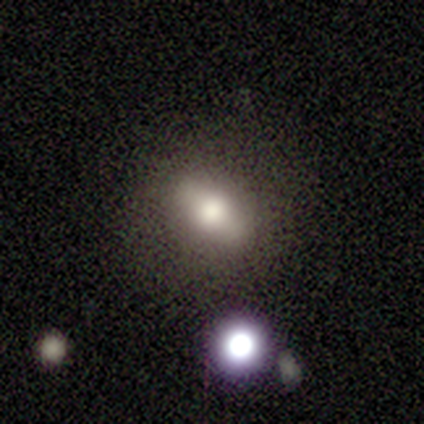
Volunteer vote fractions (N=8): A smooth galaxy with no disk features (62%) that is in between round and cigar-shaped (60%). Merging: none (71%).